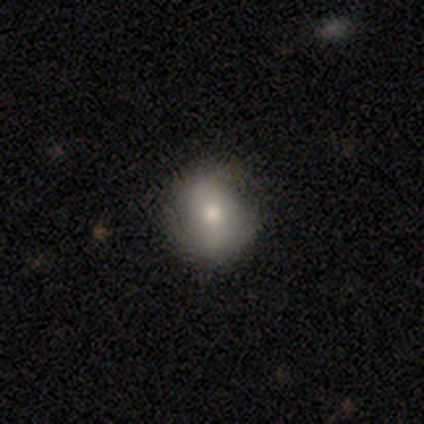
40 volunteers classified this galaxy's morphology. type=smooth (60%); roundness=round (75%); merging=none (67%).